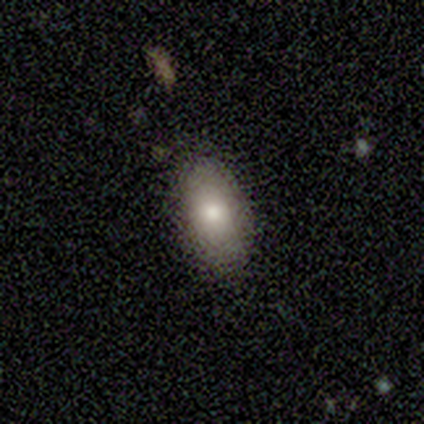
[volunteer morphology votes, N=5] Smooth or featured? 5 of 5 (100%) said smooth. How rounded? 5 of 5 (100%) said in between. Merging? 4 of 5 (80%) said none.